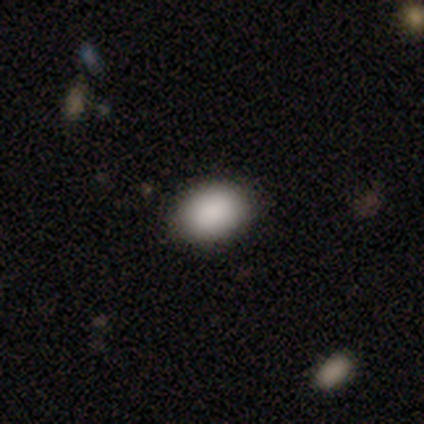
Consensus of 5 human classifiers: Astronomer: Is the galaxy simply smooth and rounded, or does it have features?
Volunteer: smooth — 80%.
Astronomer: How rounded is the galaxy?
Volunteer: round — 50%, tied with in between at 50%.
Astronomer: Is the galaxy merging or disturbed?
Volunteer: none — 100%.